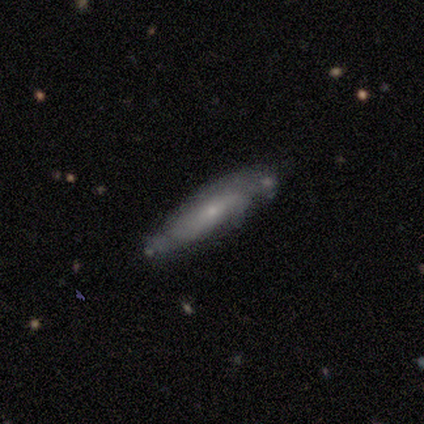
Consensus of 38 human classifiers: Q: Smooth or featured?
A: smooth (50%); runner-up: featured or disk (37%)
Q: How rounded?
A: cigar-shaped (68%); runner-up: in between (32%)
Q: Merging?
A: none (85%); runner-up: minor disturbance (9%)